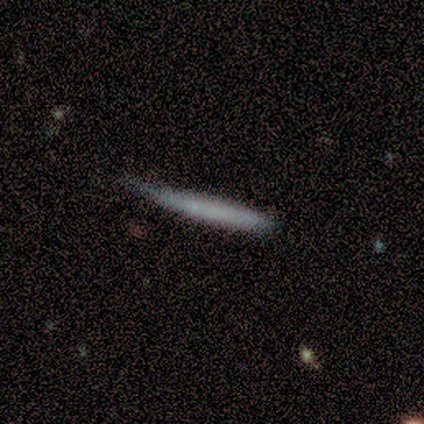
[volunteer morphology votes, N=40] This is likely a smooth galaxy (65%). How rounded: clearly cigar-shaped (100%). Merging: marginally none (38%).